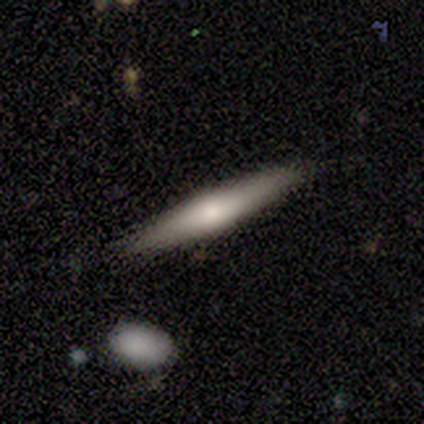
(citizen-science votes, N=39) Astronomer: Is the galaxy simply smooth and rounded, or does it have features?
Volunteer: featured or disk — 62%.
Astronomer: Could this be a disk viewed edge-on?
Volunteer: yes — 100%.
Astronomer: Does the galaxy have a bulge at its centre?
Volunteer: rounded — 88%.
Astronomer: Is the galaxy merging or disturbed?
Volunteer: none — 91%.